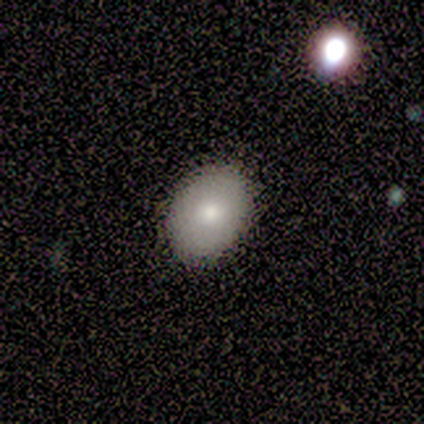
smooth 100%, featured or disk 0%, star or artifact 0%. Down the decision tree: how rounded — in between (80%); merging — none (80%).